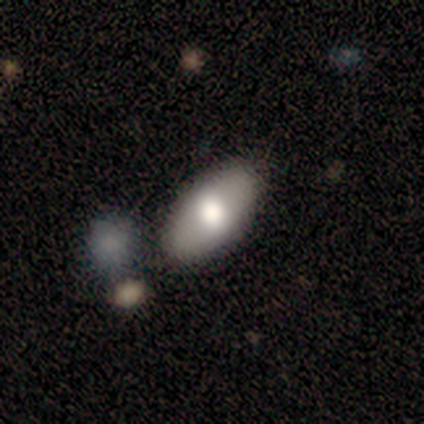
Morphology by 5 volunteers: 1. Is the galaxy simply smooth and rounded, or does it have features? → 100% smooth, 0% featured or disk, 0% star or artifact.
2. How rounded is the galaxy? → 80% in between, 20% round, 0% cigar-shaped.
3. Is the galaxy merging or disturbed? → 80% none, 20% merger, 0% minor disturbance, 0% major disturbance.